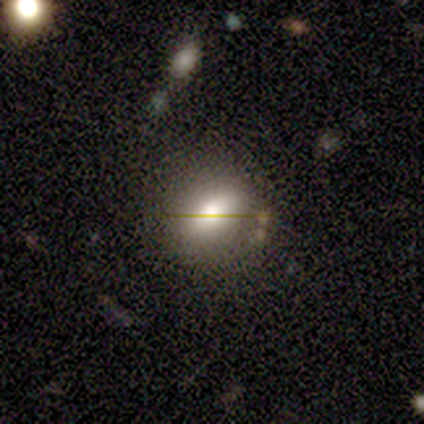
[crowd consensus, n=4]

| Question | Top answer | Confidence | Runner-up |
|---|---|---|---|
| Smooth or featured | smooth | 50% | featured or disk (25%) |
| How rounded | in between | 100% | — |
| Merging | none | 67% | minor disturbance (33%) |